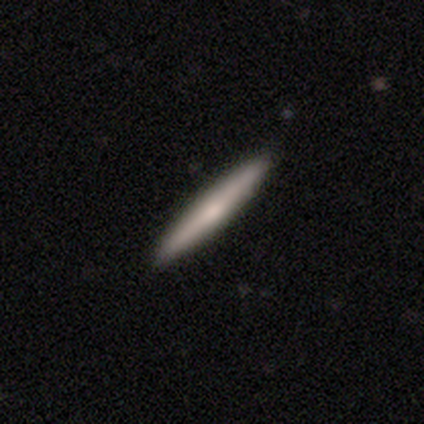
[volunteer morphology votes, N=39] Smooth or featured? smooth (56%)
How rounded? cigar-shaped (95%)
Merging? none (92%)